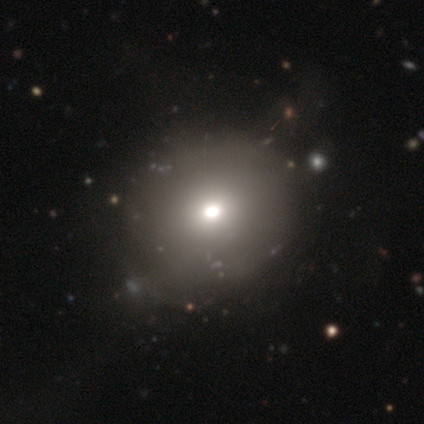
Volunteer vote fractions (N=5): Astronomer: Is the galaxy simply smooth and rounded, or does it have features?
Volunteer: star or artifact — 60% (runner-up: smooth, 40%).